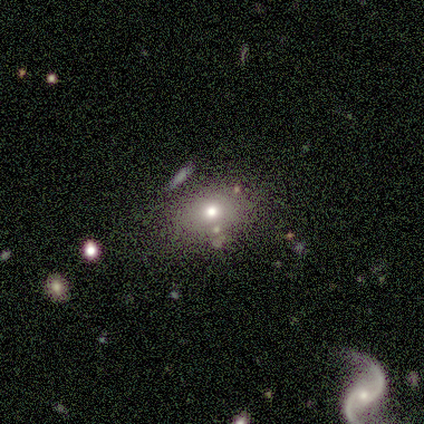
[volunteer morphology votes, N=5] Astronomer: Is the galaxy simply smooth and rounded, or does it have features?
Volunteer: smooth — 60%.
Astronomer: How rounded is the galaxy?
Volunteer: round — 67%.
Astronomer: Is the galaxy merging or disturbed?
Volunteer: none — 75%.